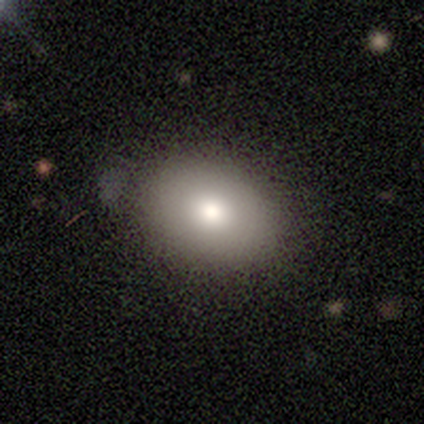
smooth-or-featured: smooth: 60% | featured or disk: 40% | star or artifact: 0%
  how-rounded: round: 67% | in between: 33% | cigar-shaped: 0%
  merging: none: 60% | minor disturbance: 40% | major disturbance: 0% | merger: 0%